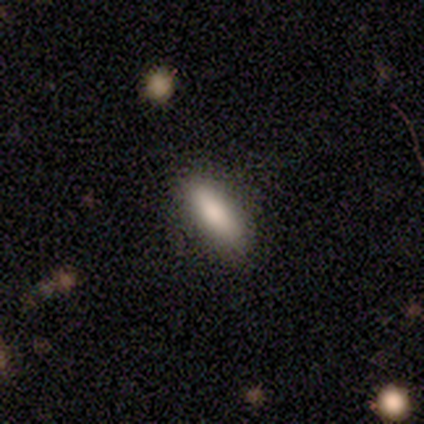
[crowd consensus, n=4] Smooth or featured? smooth (75%)
How rounded? cigar-shaped (67%)
Merging? none (100%)